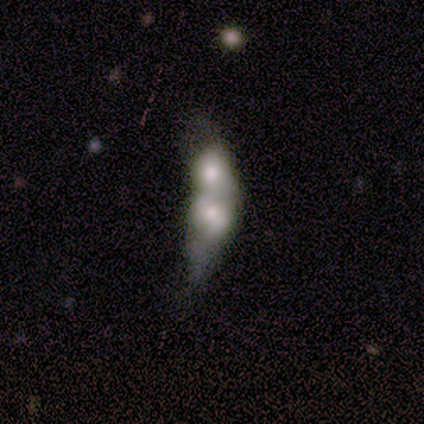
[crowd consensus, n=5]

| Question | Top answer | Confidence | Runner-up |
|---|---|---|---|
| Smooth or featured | smooth | 80% | featured or disk (20%) |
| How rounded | cigar-shaped | 50% | round (25%) |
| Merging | major disturbance | 40% | tied: merger (40%) |